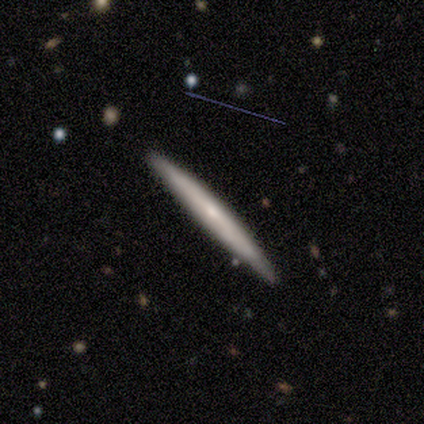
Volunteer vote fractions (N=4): Volunteers were most divided on "edge-on bulge": none: 67%, rounded: 33%, boxy: 0%. More confident: edge-on disk — yes (100%); merging — none (100%); smooth or featured — featured or disk (75%).